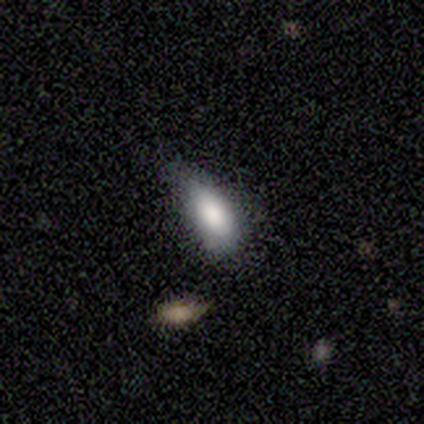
Q: Smooth or featured?
A: smooth (100%)
Q: How rounded?
A: in between (100%)
Q: Merging?
A: minor disturbance (40%); tied with: major disturbance (40%)